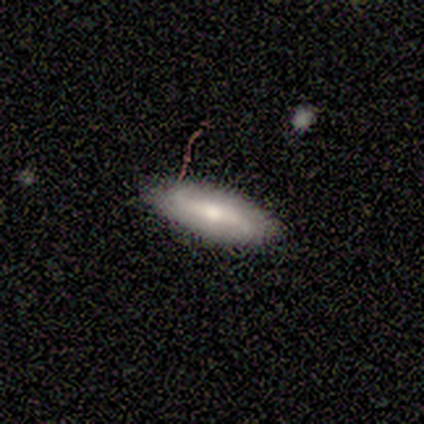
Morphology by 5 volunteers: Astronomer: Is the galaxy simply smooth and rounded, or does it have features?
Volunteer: smooth — 80%.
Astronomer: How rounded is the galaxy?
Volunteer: in between — 75%.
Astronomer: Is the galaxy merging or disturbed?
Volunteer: none — 60% (runner-up: minor disturbance, 40%).